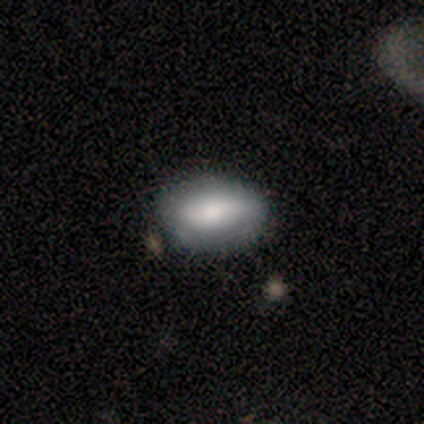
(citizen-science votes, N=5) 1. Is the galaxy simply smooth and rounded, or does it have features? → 80% smooth, 20% featured or disk, 0% star or artifact.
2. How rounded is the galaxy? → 100% in between, 0% round, 0% cigar-shaped.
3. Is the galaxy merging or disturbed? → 80% none, 20% minor disturbance, 0% major disturbance, 0% merger.